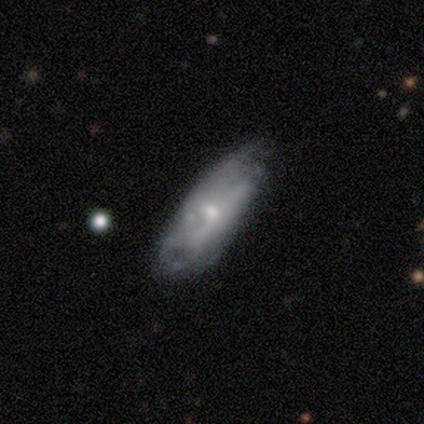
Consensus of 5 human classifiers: smooth-or-featured: smooth: 60% | featured or disk: 40% | star or artifact: 0%
  how-rounded: in between: 67% | cigar-shaped: 33% | round: 0%
  merging: minor disturbance: 60% | none: 40% | major disturbance: 0% | merger: 0%